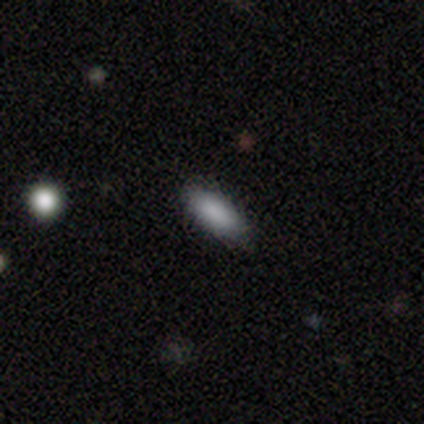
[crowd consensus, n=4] Smooth or featured? 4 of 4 (100%) said smooth. How rounded? 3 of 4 (75%) said in between. Merging? 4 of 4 (100%) said none.